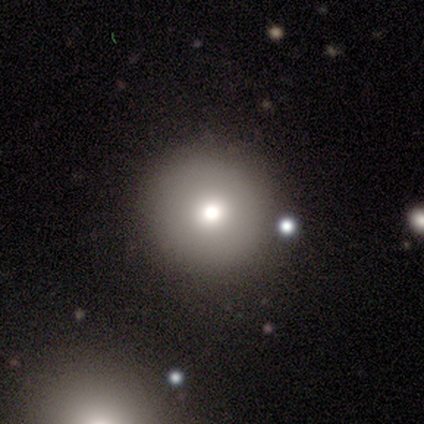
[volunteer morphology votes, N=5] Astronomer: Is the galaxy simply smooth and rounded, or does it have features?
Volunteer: smooth — 40%, tied with star or artifact at 40%.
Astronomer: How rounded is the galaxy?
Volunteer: round — 100%.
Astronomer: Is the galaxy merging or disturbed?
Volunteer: none — 100%.